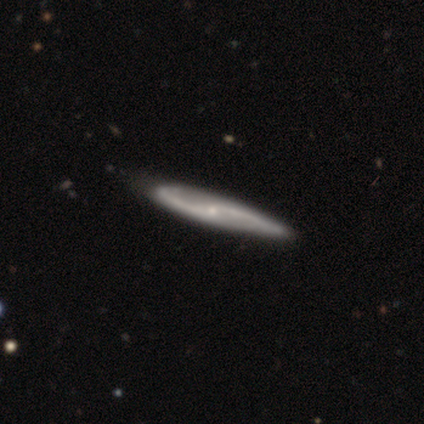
Smooth or featured: featured or disk — 87% (smooth — 8%)
Edge-on disk: no — 74% (yes — 26%)
Bar: no — 64% (weak — 28%)
Spiral arms: yes — 92% (no — 8%)
Spiral winding: loose — 70% (medium — 22%)
Spiral arm count: 2 — 96% (can't tell — 4%)
Bulge size: small — 72% (none — 16%)
Merging: none — 49% (minor disturbance — 14%)